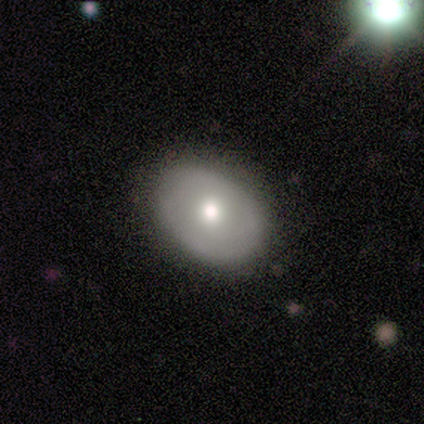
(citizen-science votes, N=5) Morphology: type=featured or disk (80%); edge-on=no (100%); bar=no (100%); spiral arms=no (100%); bulge=moderate (50%, tied with small); merging=none (80%).